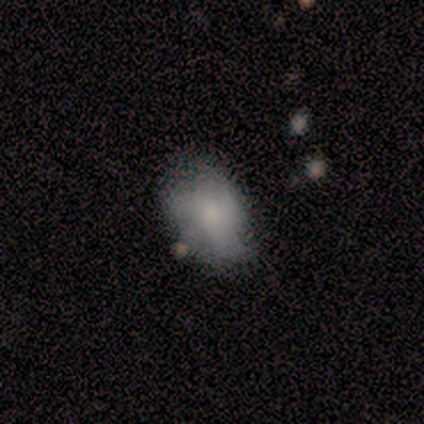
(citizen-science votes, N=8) Volunteers were most divided on "merging": minor disturbance: 50%, none: 38%, major disturbance: 12%, merger: 0%. More confident: how rounded — in between (83%); smooth or featured — smooth (75%).